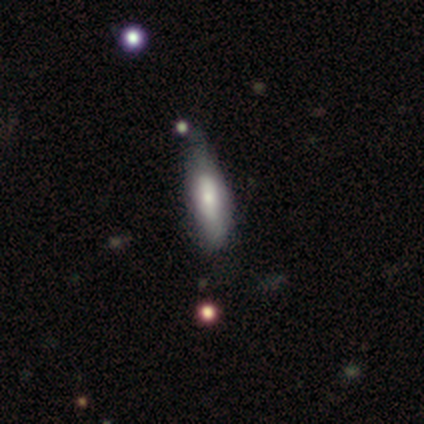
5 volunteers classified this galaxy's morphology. Overall: smooth (80%). How rounded: in between (50%, tied with cigar-shaped). Merging: none (60%; minor disturbance 40%).